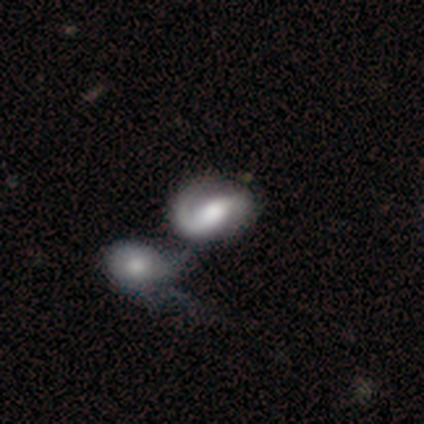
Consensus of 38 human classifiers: Volunteers were most divided on "bar": no: 40%, strong: 33%, weak: 27%. More confident: edge-on disk — no (100%); spiral arms — yes (93%); smooth or featured — featured or disk (79%); spiral arm count — 2 (79%); merging — merger (71%); spiral winding — medium (57%); bulge size — moderate (50%).